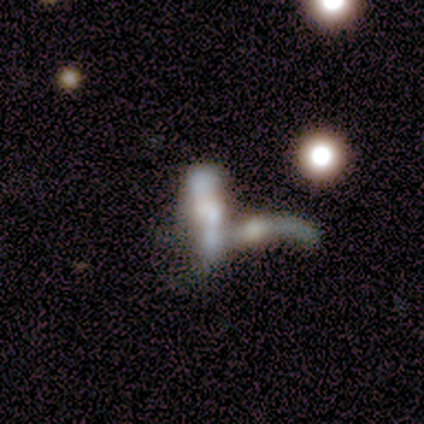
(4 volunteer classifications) Morphology: type=featured or disk (75%); edge-on=yes (67%); edge-on bulge=boxy (50%, tied with rounded); merging=merger (100%).